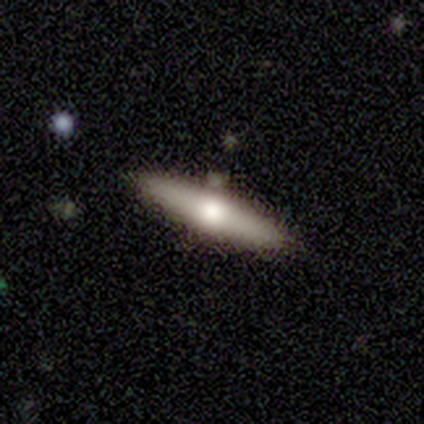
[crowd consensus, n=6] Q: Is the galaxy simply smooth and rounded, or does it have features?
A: featured or disk — 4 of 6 (67%).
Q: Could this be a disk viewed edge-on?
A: yes — 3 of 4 (75%).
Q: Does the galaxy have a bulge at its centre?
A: rounded — 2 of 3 (67%).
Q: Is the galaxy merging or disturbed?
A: none — 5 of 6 (83%).